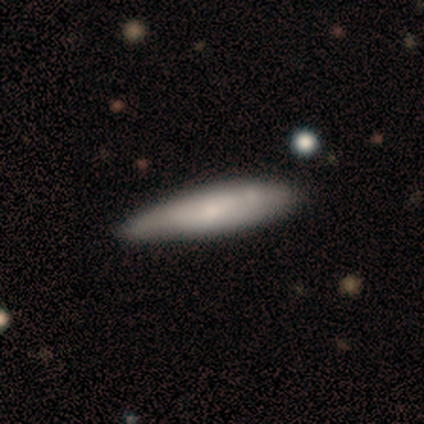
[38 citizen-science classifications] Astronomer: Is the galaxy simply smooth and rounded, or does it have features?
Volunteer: smooth — 66%.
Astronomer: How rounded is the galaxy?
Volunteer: cigar-shaped — 88%.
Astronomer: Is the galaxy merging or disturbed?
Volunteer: none — 73%.